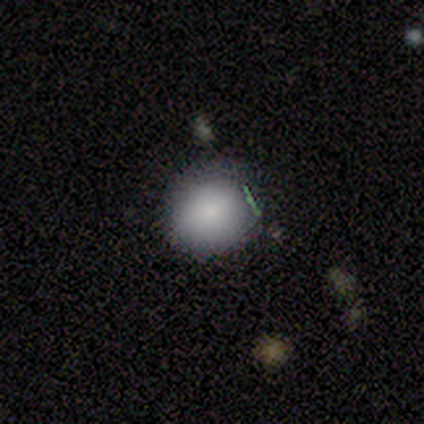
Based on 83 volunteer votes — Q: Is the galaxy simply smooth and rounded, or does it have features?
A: smooth — 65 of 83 (78%).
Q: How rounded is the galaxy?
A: round — 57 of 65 (88%).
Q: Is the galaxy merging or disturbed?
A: none — 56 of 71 (79%).